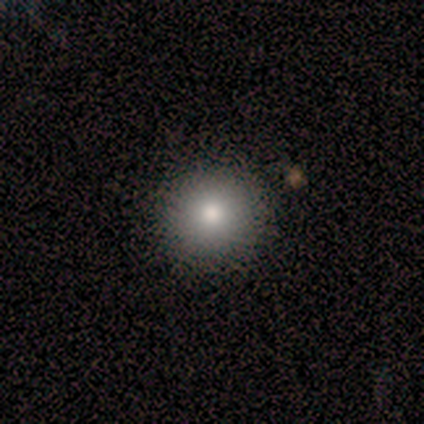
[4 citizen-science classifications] Smooth or featured? 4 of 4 (100%) said smooth. How rounded? 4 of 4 (100%) said round. Merging? 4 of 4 (100%) said none.